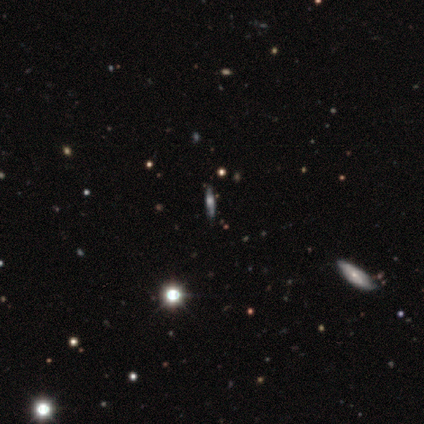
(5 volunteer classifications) Smooth or featured?
  - featured or disk: 80% *
  - star or artifact: 20%
  - smooth: 0%
Edge-on disk?
  - yes: 75% *
  - no: 25%
Edge-on bulge?
  - rounded: 67% *
  - none: 33%
  - boxy: 0%
Merging?
  - none: 100% *
  - minor disturbance: 0%
  - major disturbance: 0%
  - merger: 0%